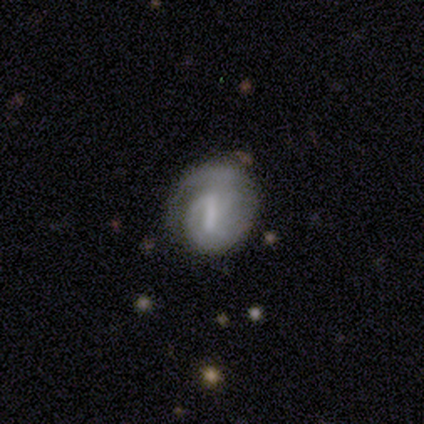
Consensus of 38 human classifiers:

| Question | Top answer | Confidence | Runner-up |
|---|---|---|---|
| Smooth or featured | featured or disk | 89% | smooth (8%) |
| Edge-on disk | no | 97% | yes (3%) |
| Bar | strong | 42% | tied: weak (42%) |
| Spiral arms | yes | 88% | no (12%) |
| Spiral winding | tight | 62% | medium (24%) |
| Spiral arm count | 2 | 62% | 1 (24%) |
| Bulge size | none | 61% | small (27%) |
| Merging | none | 59% | minor disturbance (32%) |